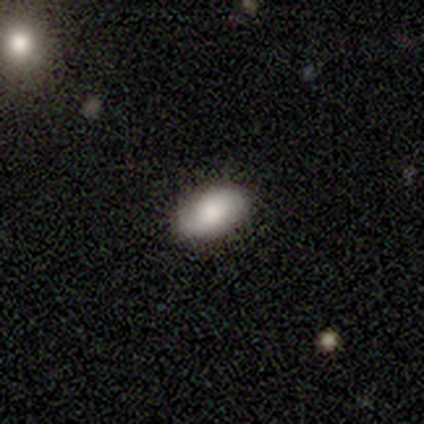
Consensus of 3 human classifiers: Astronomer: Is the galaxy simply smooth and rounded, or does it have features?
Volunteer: featured or disk — 67%.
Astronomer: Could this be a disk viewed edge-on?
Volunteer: no — 100%.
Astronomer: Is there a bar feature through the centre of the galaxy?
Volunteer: weak — 50%, tied with no at 50%.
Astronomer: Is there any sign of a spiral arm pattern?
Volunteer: yes — 100%.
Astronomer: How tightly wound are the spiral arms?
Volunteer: medium — 50%, tied with loose at 50%.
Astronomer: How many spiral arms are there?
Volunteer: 2 — 100%.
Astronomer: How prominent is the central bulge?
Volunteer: large — 50%, tied with moderate at 50%.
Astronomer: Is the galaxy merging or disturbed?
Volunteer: none — 100%.